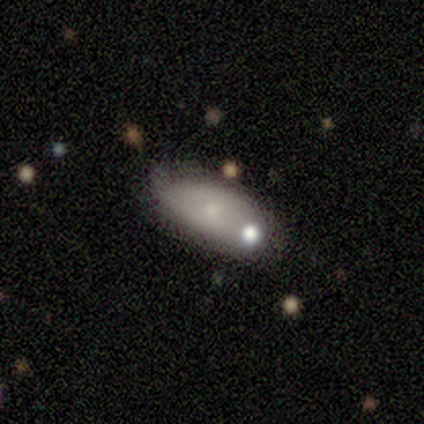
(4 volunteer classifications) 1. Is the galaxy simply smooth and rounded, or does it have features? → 100% smooth, 0% featured or disk, 0% star or artifact.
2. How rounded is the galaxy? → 100% in between, 0% round, 0% cigar-shaped.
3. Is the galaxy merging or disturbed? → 75% none, 25% minor disturbance, 0% major disturbance, 0% merger.